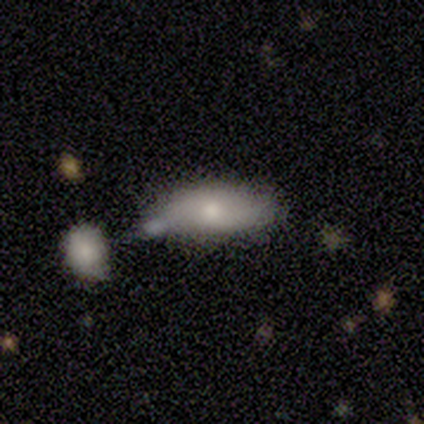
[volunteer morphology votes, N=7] This appears to be a smooth galaxy with no disk features (100%) that is in between round and cigar-shaped (86%). Merging: minor disturbance (57%).